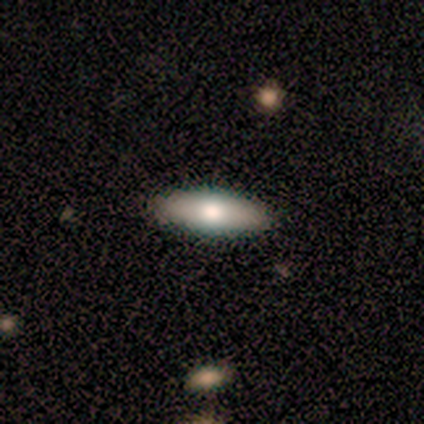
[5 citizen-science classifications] Morphology: type=smooth (60%); roundness=in between (100%); merging=none (100%).